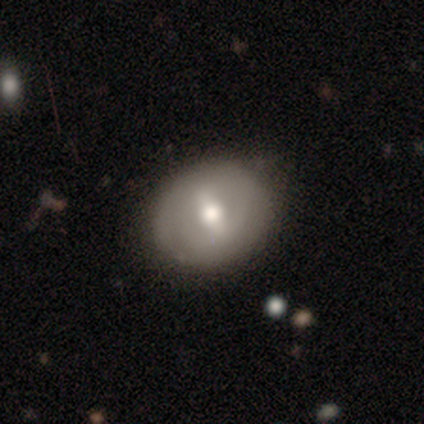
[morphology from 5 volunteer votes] smooth_or_featured: featured or disk (p=0.80) [alt: smooth p=0.20]
disk_edge_on: no (p=1.00)
bar: strong (p=0.75) [alt: no p=0.25]
has_spiral_arms: yes (p=0.75) [alt: no p=0.25]
spiral_winding: medium (p=0.67) [alt: tight p=0.33]
spiral_arm_count: 2 (p=0.67) [alt: can't tell p=0.33]
bulge_size: moderate (p=0.75) [alt: large p=0.25]
merging: none (p=0.80) [alt: minor disturbance p=0.20]